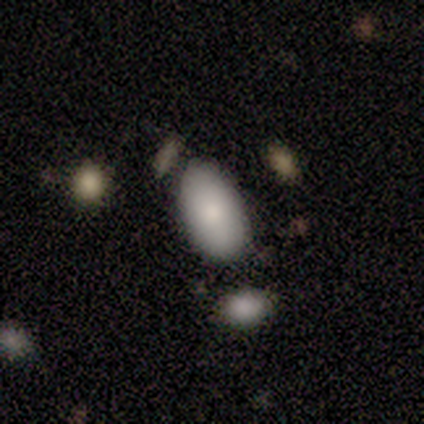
Volunteers were most divided on "merging" (2-way tie): none: 40%, minor disturbance: 40%, major disturbance: 20%, merger: 0%. More confident: how rounded — in between (100%); smooth or featured — smooth (80%).